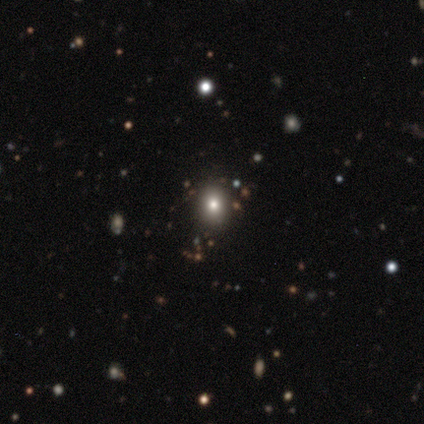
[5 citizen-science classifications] A smooth galaxy with no disk features (80%) that is round (50%, tied with in between). Merging: none (60%).